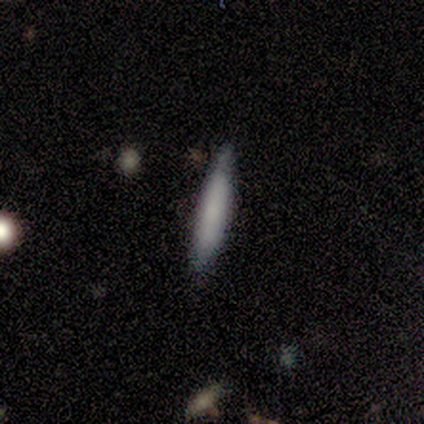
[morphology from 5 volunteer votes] Smooth or featured?
  - smooth: 80% *
  - featured or disk: 20%
  - star or artifact: 0%
How rounded?
  - cigar-shaped: 75% *
  - in between: 25%
  - round: 0%
Merging?
  - minor disturbance: 60% *
  - none: 40%
  - major disturbance: 0%
  - merger: 0%